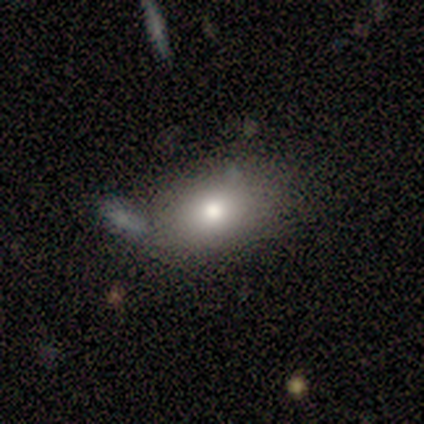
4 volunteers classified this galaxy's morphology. smooth_or_featured: smooth (p=0.75) [alt: featured or disk p=0.25]
how_rounded: in between (p=1.00)
merging: none (p=0.75) [alt: merger p=0.25]